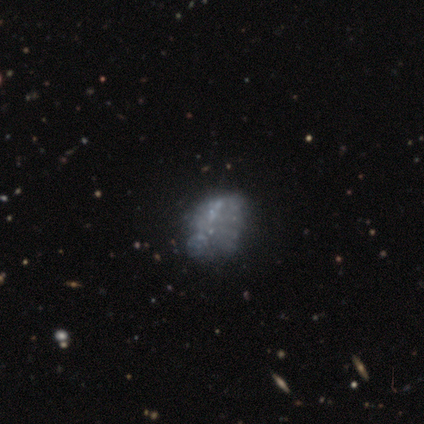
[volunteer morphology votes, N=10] smooth_or_featured: featured or disk (p=0.50) [alt: smooth p=0.30]
disk_edge_on: no (p=1.00)
bar: no (p=1.00)
has_spiral_arms: no (p=1.00)
bulge_size: none (p=0.80) [alt: small p=0.20]
merging: none (p=0.75) [alt: minor disturbance p=0.12]